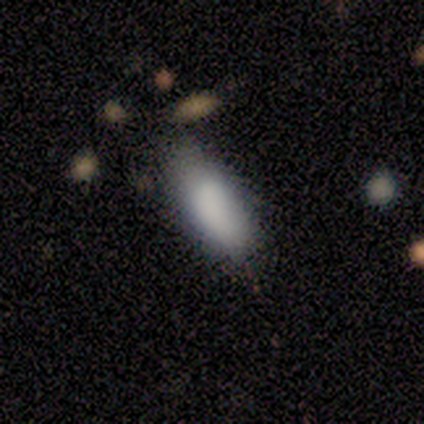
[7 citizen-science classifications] Smooth or featured? smooth (100%)
How rounded? in between (71%)
Merging? none (86%)